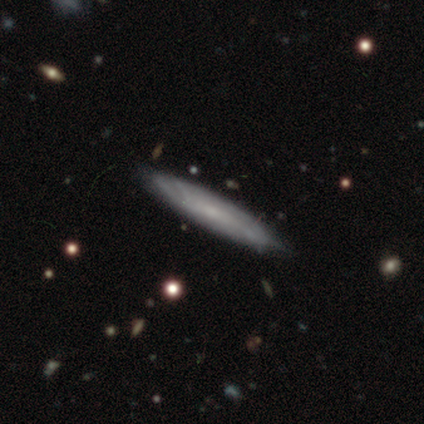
Overall: featured or disk (75%). Edge-on disk: no (67%; yes 33%). Bar: weak (100%). Spiral arms: yes (50%, tied with no). Spiral arm count: can't tell (100%). Spiral winding: medium (100%). Bulge size: small (100%). Merging: none (75%).